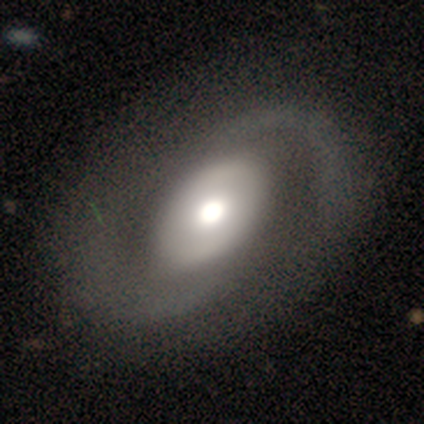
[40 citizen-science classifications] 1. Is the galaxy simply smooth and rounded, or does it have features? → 88% featured or disk, 12% smooth, 0% star or artifact.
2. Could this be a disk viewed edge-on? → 97% no, 3% yes.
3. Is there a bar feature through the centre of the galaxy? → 74% no, 21% weak, 6% strong.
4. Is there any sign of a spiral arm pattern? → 82% yes, 18% no.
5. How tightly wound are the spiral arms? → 43% loose, 32% medium, 25% tight.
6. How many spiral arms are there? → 86% 2, 7% can't tell, 4% 1, 4% 4, 0% 3, 0% more than 4.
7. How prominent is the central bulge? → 65% moderate, 26% large, 6% dominant, 3% small, 0% none.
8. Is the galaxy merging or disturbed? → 52% none, 10% minor disturbance, 5% major disturbance, 2% merger.